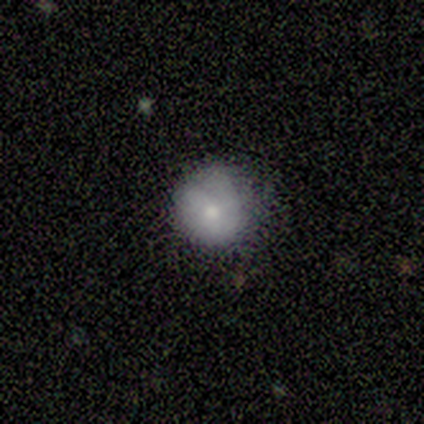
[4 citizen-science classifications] Smooth or featured: smooth — 50% (tied with featured or disk — 50%)
How rounded: round — 100%
Merging: minor disturbance — 75% (none — 25%)